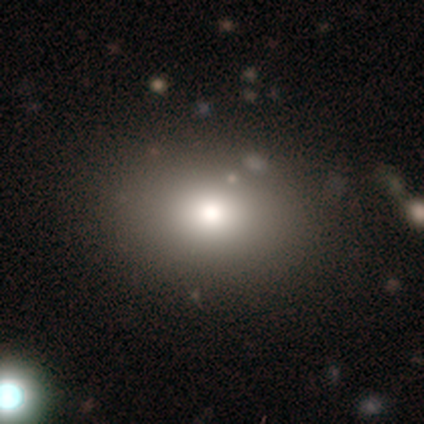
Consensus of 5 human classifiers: Smooth or featured? 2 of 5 (40%, tied with star or artifact) said smooth. How rounded? 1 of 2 (50%, tied with in between) said round. Merging? 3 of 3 (100%) said none.